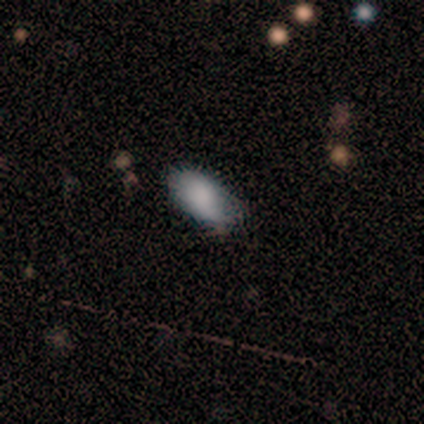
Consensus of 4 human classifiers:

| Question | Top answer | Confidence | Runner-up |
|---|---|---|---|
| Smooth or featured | smooth | 100% | — |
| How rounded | in between | 100% | — |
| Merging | none | 75% | minor disturbance (25%) |